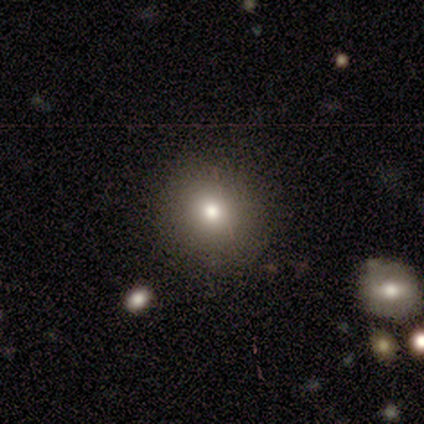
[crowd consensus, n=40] A smooth galaxy with no disk features (82%) that is round (94%).

Vote fractions:
- Smooth or featured? smooth: 82% / star or artifact: 10% / featured or disk: 8%
- How rounded? round: 94% / in between: 6% / cigar-shaped: 0%
- Merging? none: 86% / minor disturbance: 11% / merger: 3% / major disturbance: 0%